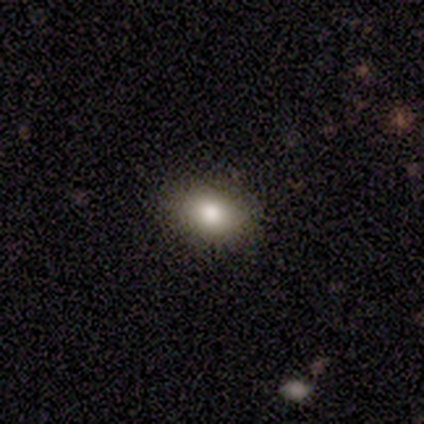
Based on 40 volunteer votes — Overall: smooth (80%). How rounded: in between (78%). Merging: none (87%).